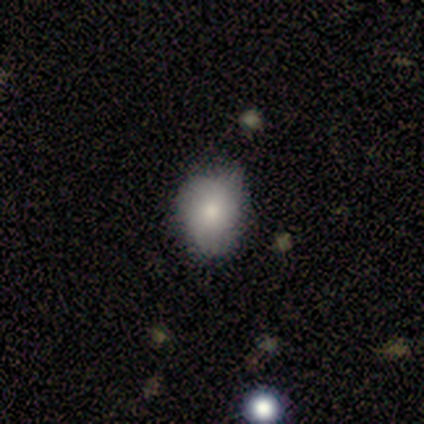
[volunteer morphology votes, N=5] smooth_or_featured: smooth (p=0.60) [alt: featured or disk p=0.40]
how_rounded: in between (p=0.67) [alt: round p=0.33]
merging: none (p=0.80) [alt: minor disturbance p=0.20]